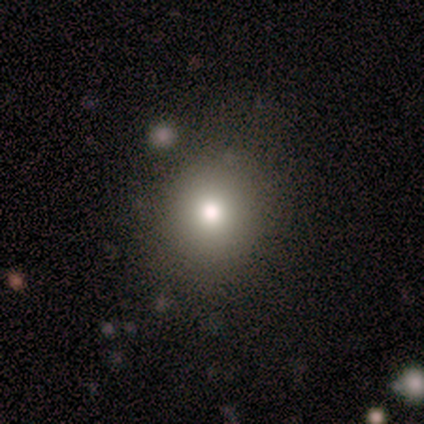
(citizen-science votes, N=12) This is likely a smooth galaxy (75%). How rounded: likely round (67%). Merging: likely none (73%).